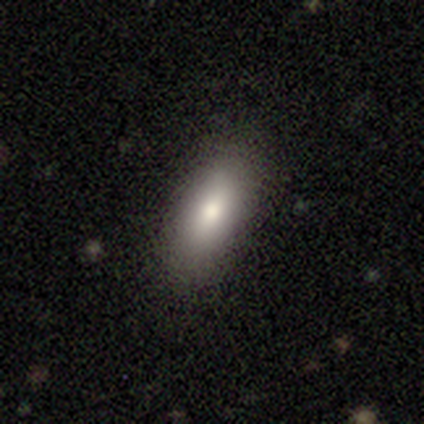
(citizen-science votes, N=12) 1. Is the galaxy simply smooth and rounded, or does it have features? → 75% smooth, 25% featured or disk, 0% star or artifact.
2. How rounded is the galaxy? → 100% in between, 0% round, 0% cigar-shaped.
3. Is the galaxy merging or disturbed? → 92% none, 8% minor disturbance, 0% major disturbance, 0% merger.